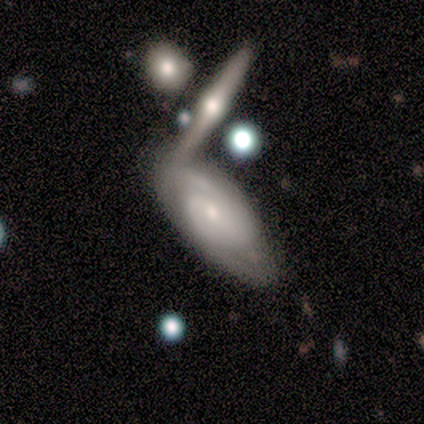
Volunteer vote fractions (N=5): Smooth or featured? 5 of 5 (100%) said featured or disk. Edge-on disk? 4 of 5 (80%) said no. Bar? 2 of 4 (50%, tied with no) said weak. Spiral arms? 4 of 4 (100%) said yes. Spiral winding? 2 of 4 (50%, tied with medium) said tight. Spiral arm count? 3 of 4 (75%) said 2. Bulge size? 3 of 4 (75%) said moderate. Merging? 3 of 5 (60%) said merger.